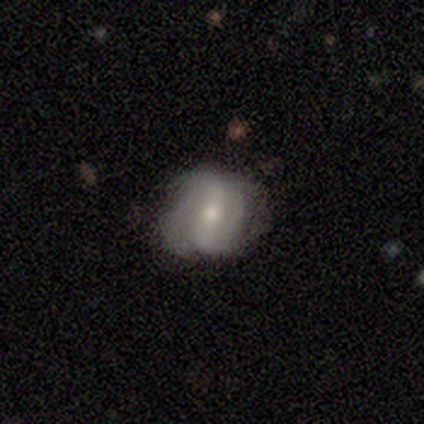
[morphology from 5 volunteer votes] Smooth or featured? 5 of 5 (100%) said featured or disk. Edge-on disk? 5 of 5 (100%) said no. Bar? 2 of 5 (40%, tied with no) said strong. Spiral arms? 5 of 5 (100%) said yes. Spiral winding? 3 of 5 (60%) said medium. Spiral arm count? 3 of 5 (60%) said 2. Bulge size? 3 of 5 (60%) said moderate. Merging? 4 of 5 (80%) said none.